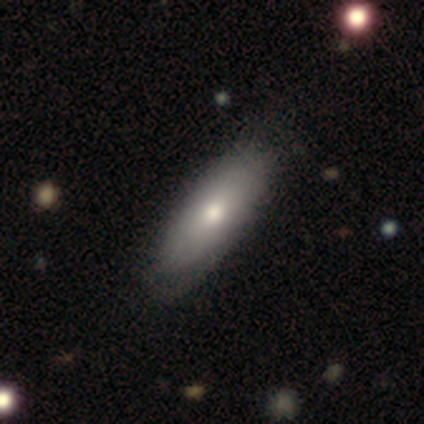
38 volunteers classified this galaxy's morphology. A smooth galaxy with no disk features (79%) that is in between round and cigar-shaped (83%). Merging: none (61%).